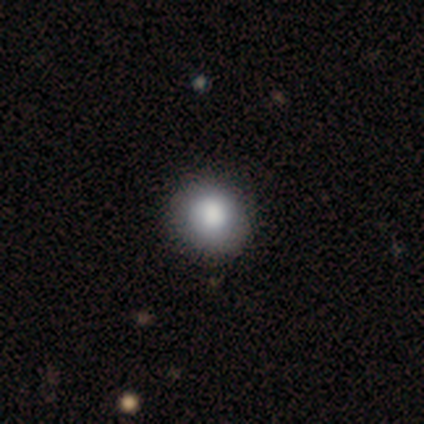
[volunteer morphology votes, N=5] smooth-or-featured: smooth: 100% | featured or disk: 0% | star or artifact: 0%
  how-rounded: round: 80% | in between: 20% | cigar-shaped: 0%
  merging: none: 80% | minor disturbance: 20% | major disturbance: 0% | merger: 0%